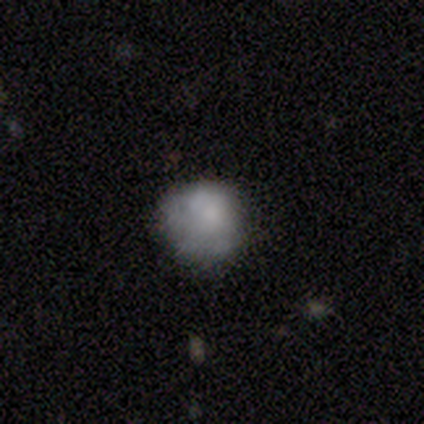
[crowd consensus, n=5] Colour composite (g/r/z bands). It shows a smooth galaxy with no disk features (60%) that is round (67%). Merging: minor disturbance (60%).